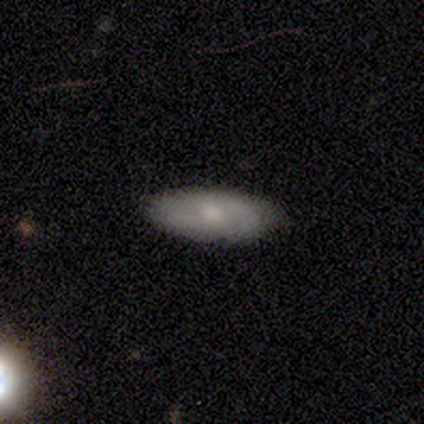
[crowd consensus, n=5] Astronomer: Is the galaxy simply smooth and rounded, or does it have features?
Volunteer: featured or disk — 60% (runner-up: smooth, 40%).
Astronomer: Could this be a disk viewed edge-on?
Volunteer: no — 67%.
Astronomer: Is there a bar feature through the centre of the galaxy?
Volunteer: no — 100%.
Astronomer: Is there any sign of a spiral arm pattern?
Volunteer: no — 100%.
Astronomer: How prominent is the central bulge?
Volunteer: moderate — 100%.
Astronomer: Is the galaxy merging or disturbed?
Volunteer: none — 60%.